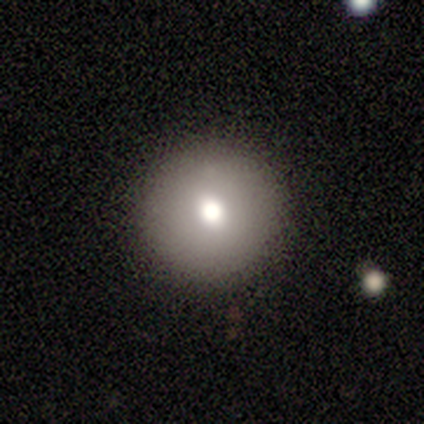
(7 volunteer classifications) smooth_or_featured: smooth (p=0.86) [alt: star or artifact p=0.14]
how_rounded: round (p=1.00)
merging: none (p=1.00)